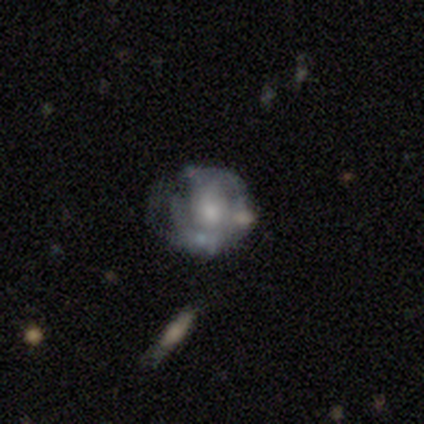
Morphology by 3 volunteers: Q: Smooth or featured?
A: featured or disk (100%)
Q: Edge-on disk?
A: no (100%)
Q: Bar?
A: no (100%)
Q: Spiral arms?
A: no (100%)
Q: Bulge size?
A: moderate (67%); runner-up: large (33%)
Q: Merging?
A: major disturbance (67%); runner-up: minor disturbance (33%)